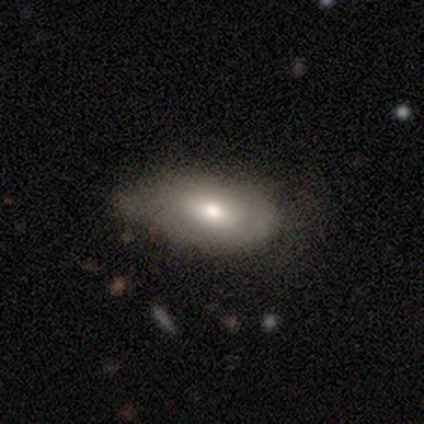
This appears to be a smooth galaxy with no disk features (75%) that is in between round and cigar-shaped (95%). Merging: minor disturbance (55%).